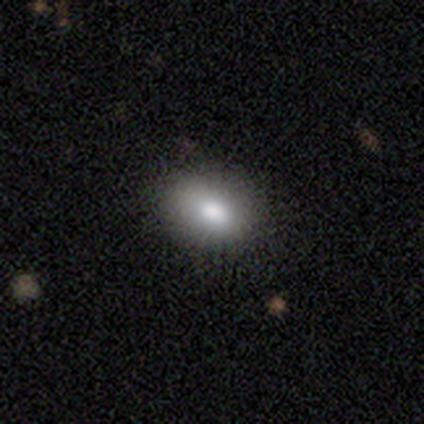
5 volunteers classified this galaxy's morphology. Volunteers were most divided on "smooth or featured": smooth: 80%, featured or disk: 20%, star or artifact: 0%. More confident: how rounded — in between (100%); merging — none (100%).